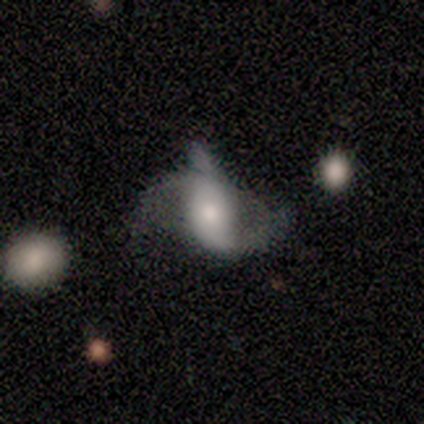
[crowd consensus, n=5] smooth_or_featured: featured or disk (p=1.00)
disk_edge_on: no (p=1.00)
bar: weak (p=0.40) [tied with: no p=0.40]
has_spiral_arms: yes (p=0.80) [alt: no p=0.20]
spiral_winding: loose (p=0.75) [alt: medium p=0.25]
spiral_arm_count: 2 (p=0.75) [alt: 3 p=0.25]
bulge_size: small (p=0.60) [alt: large p=0.20]
merging: none (p=0.40) [alt: minor disturbance p=0.20]